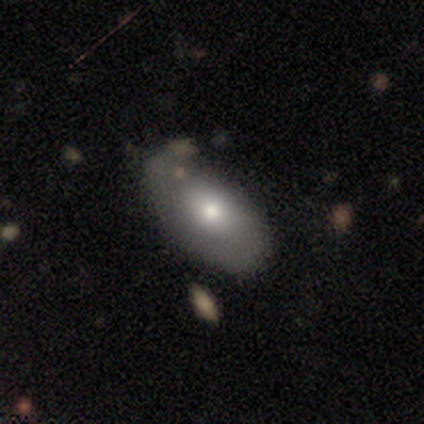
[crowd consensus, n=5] Smooth or featured? 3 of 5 (60%) said smooth. How rounded? 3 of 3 (100%) said in between. Merging? 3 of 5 (60%) said none.